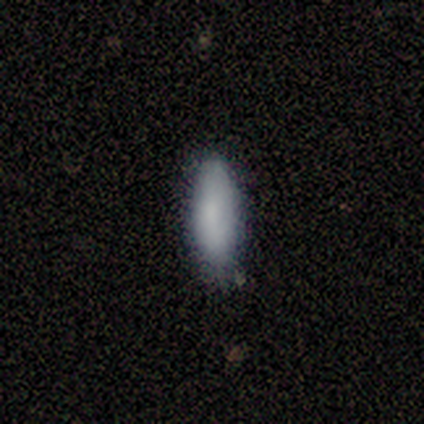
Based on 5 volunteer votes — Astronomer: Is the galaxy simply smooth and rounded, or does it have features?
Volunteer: smooth — 80%.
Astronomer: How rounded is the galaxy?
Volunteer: in between — 100%.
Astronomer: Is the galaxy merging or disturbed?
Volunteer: none — 100%.